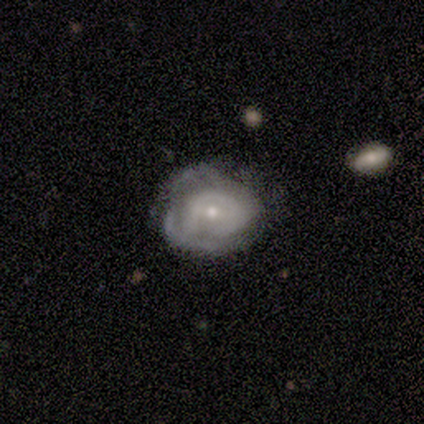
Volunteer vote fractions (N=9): This is likely a featured or disk galaxy (78%). It is clearly not viewed edge-on (100%). Bar: clearly no (86%). Spiral arm pattern: clearly yes (86%). Spiral arm count: possibly can't tell (50%). Spiral winding: possibly tight (50%, tied with medium). Central bulge: likely small (71%). Merging: possibly none (50%, tied with minor disturbance).